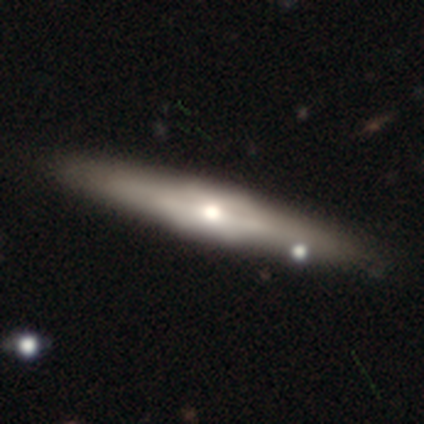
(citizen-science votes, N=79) Q: Smooth or featured?
A: featured or disk (67%); runner-up: smooth (30%)
Q: Edge-on disk?
A: yes (89%); runner-up: no (11%)
Q: Edge-on bulge?
A: rounded (51%); runner-up: boxy (47%)
Q: Merging?
A: none (43%); runner-up: minor disturbance (5%)